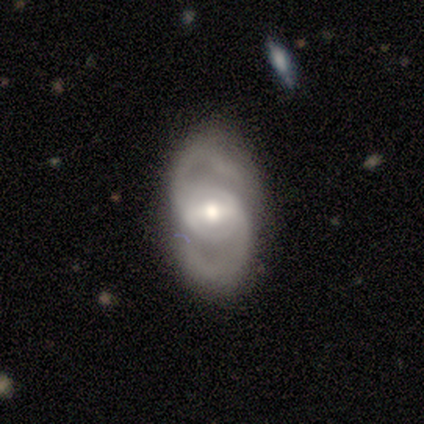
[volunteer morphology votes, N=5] A featured or disk galaxy (100%) with a weak bar (100%), 2 (100%) medium (100%) spiral arms (100%) and a moderate central bulge (80%). Merging: none (80%).